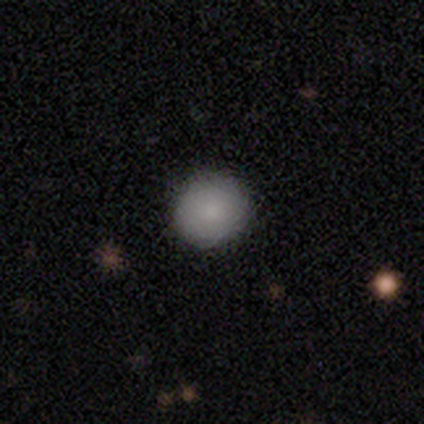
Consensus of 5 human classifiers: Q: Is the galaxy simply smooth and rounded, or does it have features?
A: smooth — 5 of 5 (100%).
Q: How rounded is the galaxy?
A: round — 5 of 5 (100%).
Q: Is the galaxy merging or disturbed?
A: none — 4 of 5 (80%).